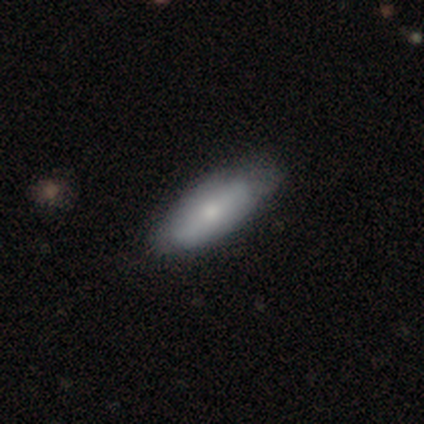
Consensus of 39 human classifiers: This appears to be a smooth galaxy with no disk features (74%) that is in between round and cigar-shaped (83%). Merging: none (55%).